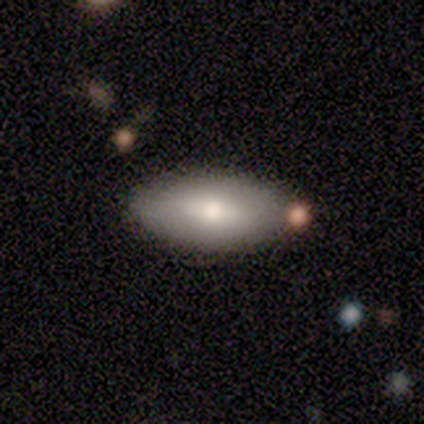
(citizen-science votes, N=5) This appears to be a smooth galaxy with no disk features (80%) that is in between round and cigar-shaped (100%). Merging: none (80%).